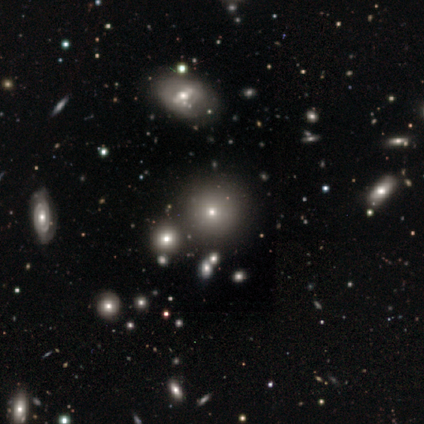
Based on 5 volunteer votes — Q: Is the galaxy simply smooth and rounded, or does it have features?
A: smooth — 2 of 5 (40%, tied with featured or disk).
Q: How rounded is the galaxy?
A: round — 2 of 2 (100%).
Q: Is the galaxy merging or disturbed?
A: none — 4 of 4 (100%).